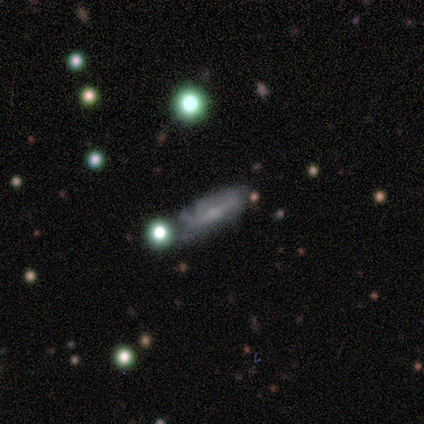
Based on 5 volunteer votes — This appears to be a smooth galaxy with no disk features (60%) that is cigar-shaped (67%). Merging: none (80%).